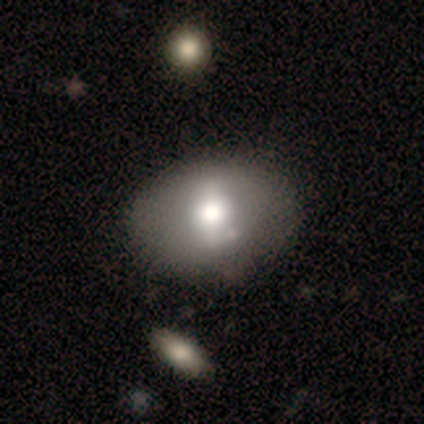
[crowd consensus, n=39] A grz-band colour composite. It shows a smooth galaxy with no disk features (54%) that is in between round and cigar-shaped (71%). Merging: none (64%).